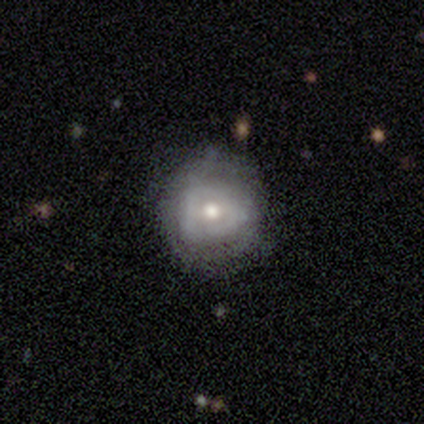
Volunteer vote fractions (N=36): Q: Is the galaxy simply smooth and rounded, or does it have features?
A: featured or disk — 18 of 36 (50%).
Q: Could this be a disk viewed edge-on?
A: no — 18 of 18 (100%).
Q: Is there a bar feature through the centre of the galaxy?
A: no — 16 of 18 (89%).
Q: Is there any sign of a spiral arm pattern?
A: no — 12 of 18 (67%).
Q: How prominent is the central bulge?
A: moderate — 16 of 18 (89%).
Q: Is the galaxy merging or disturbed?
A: none — 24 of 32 (75%).